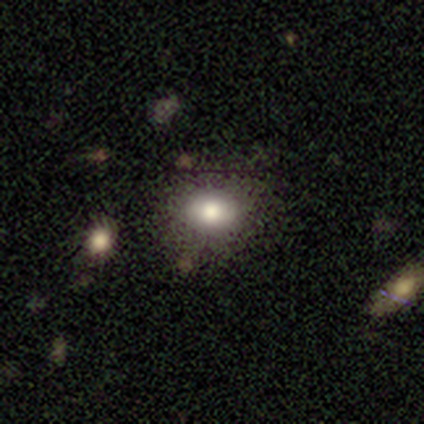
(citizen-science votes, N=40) smooth 88%, featured or disk 8%, star or artifact 5%. Down the decision tree: how rounded — in between (54%); merging — none (89%).